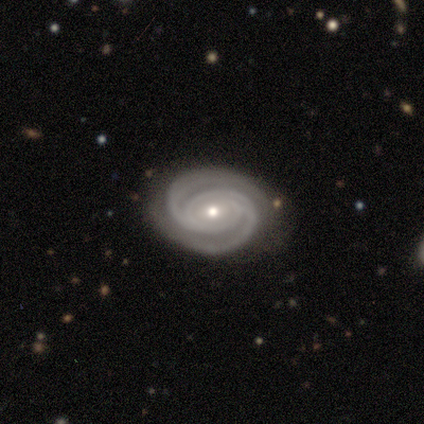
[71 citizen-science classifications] smooth_or_featured: featured or disk (p=0.87) [alt: smooth p=0.10]
disk_edge_on: no (p=0.97) [alt: yes p=0.03]
bar: no (p=0.55) [alt: weak p=0.23]
has_spiral_arms: yes (p=1.00)
spiral_winding: tight (p=0.75) [alt: medium p=0.23]
spiral_arm_count: 2 (p=0.88) [alt: 3 p=0.05]
bulge_size: small (p=0.60) [alt: moderate p=0.35]
merging: none (p=0.46) [alt: minor disturbance p=0.06]